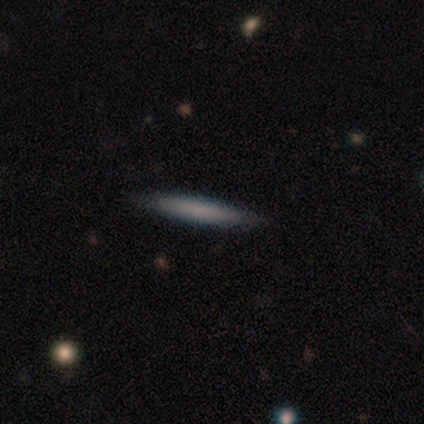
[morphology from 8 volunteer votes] Overall: smooth (75%). How rounded: cigar-shaped (100%). Merging: none (100%).